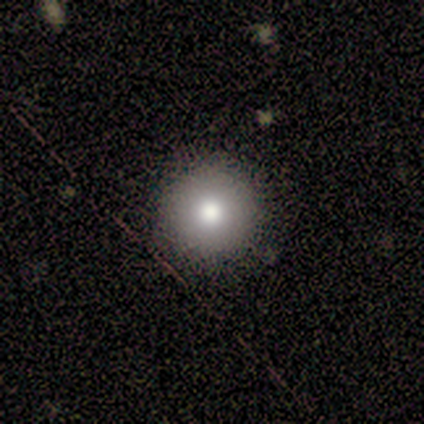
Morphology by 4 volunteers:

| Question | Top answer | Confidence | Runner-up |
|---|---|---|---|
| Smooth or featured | smooth | 100% | — |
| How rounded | round | 100% | — |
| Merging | none | 100% | — |